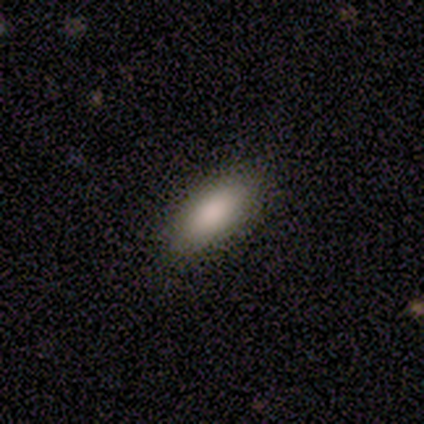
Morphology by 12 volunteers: smooth_or_featured: smooth (p=0.92) [alt: featured or disk p=0.08]
how_rounded: in between (p=0.73) [alt: cigar-shaped p=0.27]
merging: none (p=0.75) [alt: minor disturbance p=0.17]